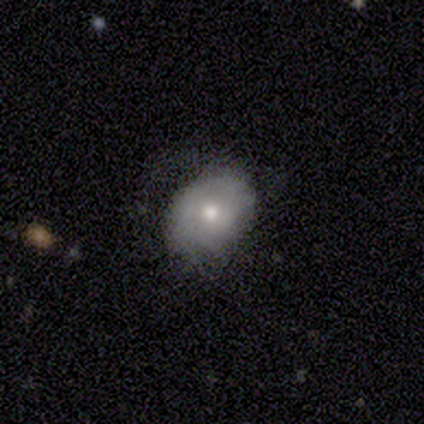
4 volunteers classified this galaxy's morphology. Overall: smooth (50%, tied with featured or disk). How rounded: in between (50%, tied with cigar-shaped). Merging: major disturbance (50%; none 25%).